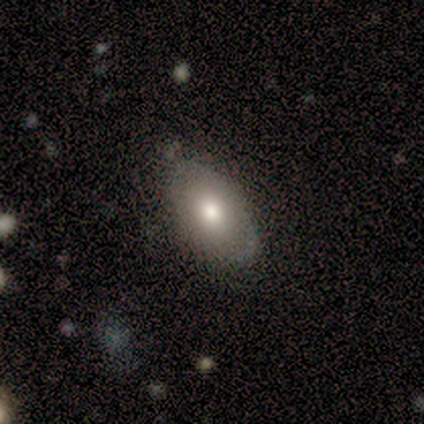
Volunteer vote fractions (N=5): Volunteers were most divided on "smooth or featured": smooth: 60%, featured or disk: 20%, star or artifact: 20%. More confident: how rounded — in between (100%); merging — none (75%).